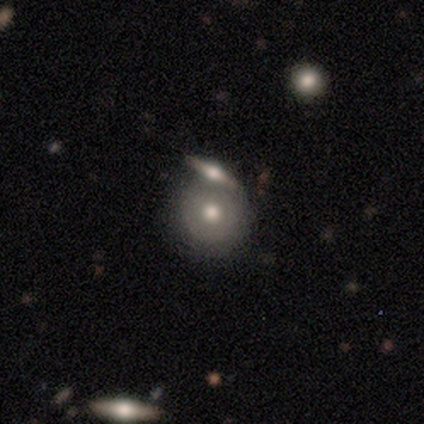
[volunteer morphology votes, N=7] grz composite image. It shows a smooth galaxy with no disk features (71%) that is round (100%). Merging: none (71%).